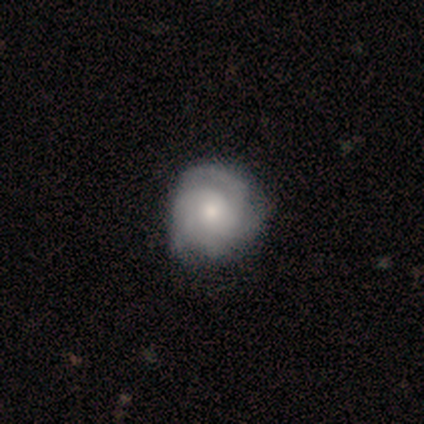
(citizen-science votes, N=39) Smooth or featured?
  - featured or disk: 85% *
  - smooth: 10%
  - star or artifact: 5%
Edge-on disk?
  - no: 94% *
  - yes: 6%
Bar?
  - no: 90% *
  - weak: 10%
  - strong: 0%
Spiral arms?
  - yes: 77% *
  - no: 23%
Spiral winding?
  - tight: 67% *
  - medium: 33%
  - loose: 0%
Spiral arm count?
  - 4: 33% *
  - can't tell: 29%
  - 2: 17%
  - 3: 12%
  - 1: 4%
  - more than 4: 4%
Bulge size?
  - moderate: 55% *
  - small: 42%
  - large: 3%
  - dominant: 0%
  - none: 0%
Merging?
  - none: 35% *
  - minor disturbance: 16%
  - major disturbance: 11%
  - merger: 0%